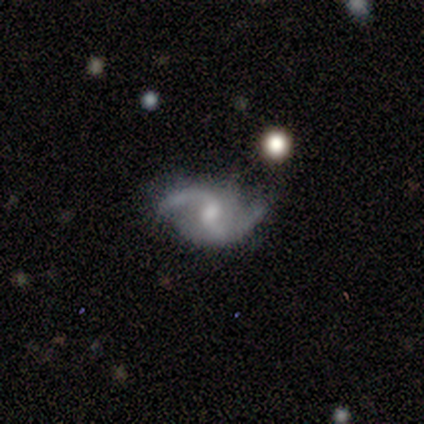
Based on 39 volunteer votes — This appears to be a featured or disk galaxy (95%) with a weak bar (49%), 2 (97%) loose (74%) spiral arms (97%) and a moderate central bulge (51%). Merging: none (73%).